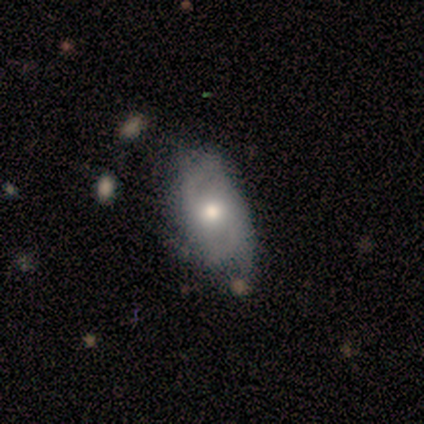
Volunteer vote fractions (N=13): A featured or disk galaxy (77%) with no bar (62%), 2 (67%) tight (50%, tied with medium) spiral arms (75%) and a moderate central bulge (62%). Merging: minor disturbance (46%).